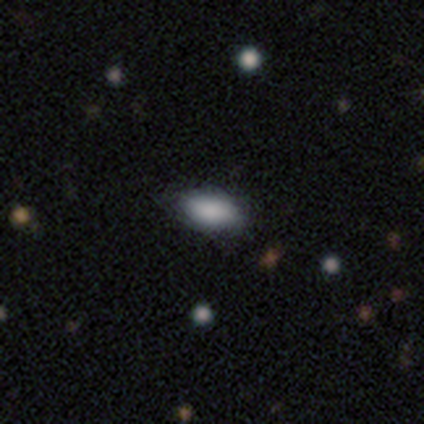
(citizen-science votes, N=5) Overall: smooth (100%). How rounded: in between (100%). Merging: none (80%).